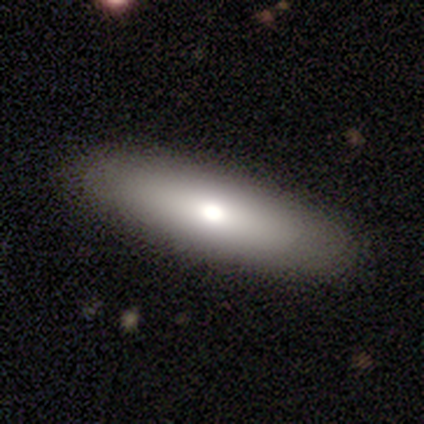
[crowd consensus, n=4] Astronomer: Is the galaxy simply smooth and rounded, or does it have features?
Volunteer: smooth — 100%.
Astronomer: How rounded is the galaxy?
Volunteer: in between — 50%, tied with cigar-shaped at 50%.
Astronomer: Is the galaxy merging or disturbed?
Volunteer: none — 100%.